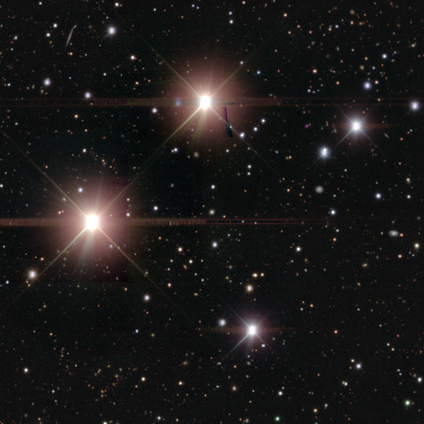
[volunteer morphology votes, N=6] A star or artifact, not a galaxy (100%).